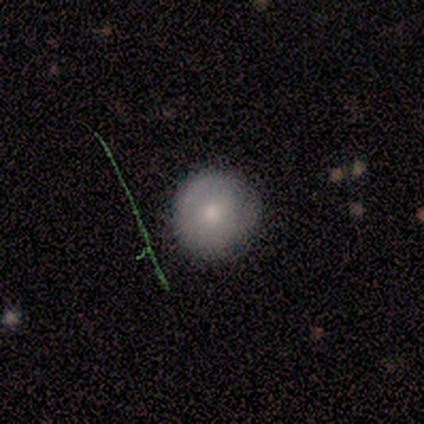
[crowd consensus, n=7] Smooth or featured? 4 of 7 (57%) said smooth. How rounded? 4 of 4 (100%) said round. Merging? 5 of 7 (71%) said none.